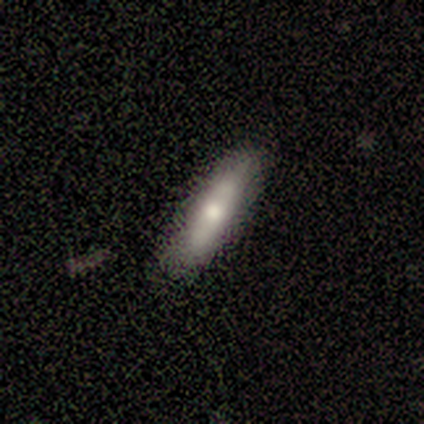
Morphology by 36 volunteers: Q: Smooth or featured?
A: smooth (75%); runner-up: featured or disk (22%)
Q: How rounded?
A: cigar-shaped (70%); runner-up: in between (30%)
Q: Merging?
A: none (86%); runner-up: minor disturbance (9%)